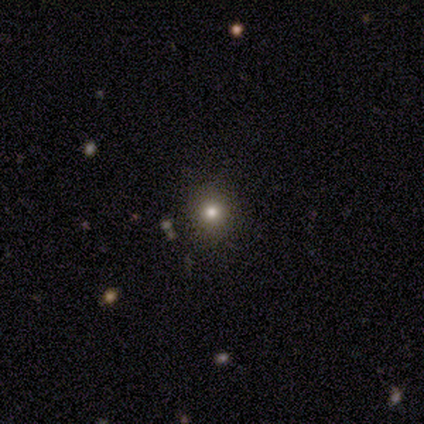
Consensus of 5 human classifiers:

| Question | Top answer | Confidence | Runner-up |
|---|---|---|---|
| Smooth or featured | star or artifact | 60% | smooth (40%) |